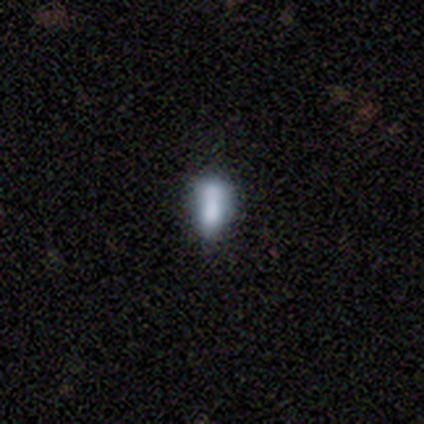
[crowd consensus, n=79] smooth 62%, featured or disk 20%, star or artifact 18%. Down the decision tree: how rounded — in between (73%); merging — none (26%).